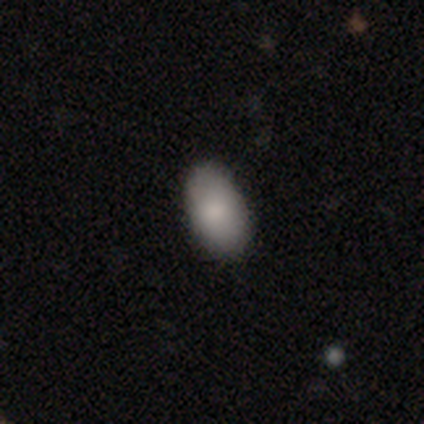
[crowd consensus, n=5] Morphology: type=smooth (80%); roundness=in between (100%); merging=none (80%).